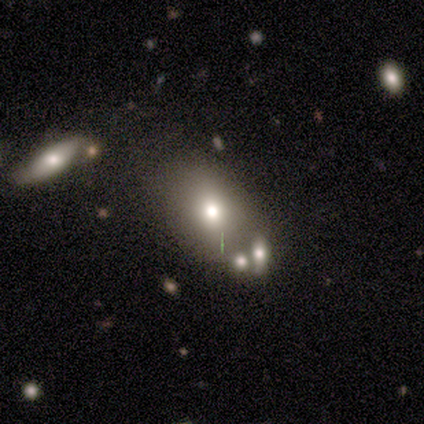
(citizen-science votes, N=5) Q: Smooth or featured?
A: smooth (100%)
Q: How rounded?
A: in between (100%)
Q: Merging?
A: minor disturbance (60%); runner-up: none (40%)